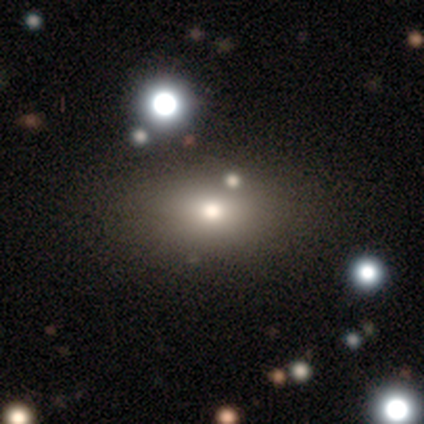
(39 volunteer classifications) Smooth or featured: smooth — 59% (star or artifact — 28%)
How rounded: in between — 91% (round — 9%)
Merging: none — 61% (major disturbance — 11%)